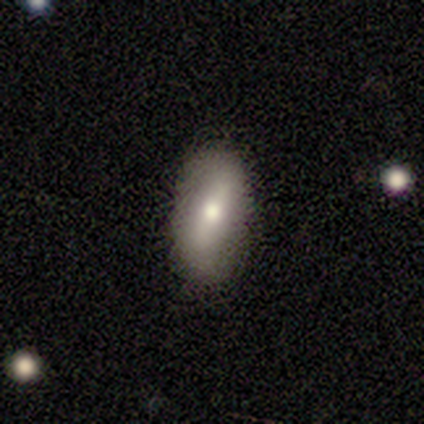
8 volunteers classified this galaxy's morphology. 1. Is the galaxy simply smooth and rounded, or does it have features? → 62% smooth, 38% featured or disk, 0% star or artifact.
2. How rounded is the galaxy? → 80% in between, 20% round, 0% cigar-shaped.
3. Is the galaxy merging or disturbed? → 88% none, 12% minor disturbance, 0% major disturbance, 0% merger.